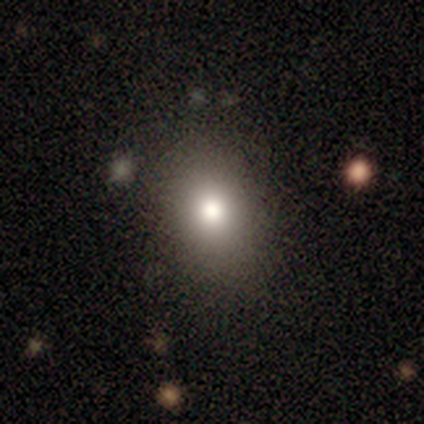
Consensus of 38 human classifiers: A smooth galaxy with no disk features (79%) that is in between round and cigar-shaped (57%). Merging: none (94%).